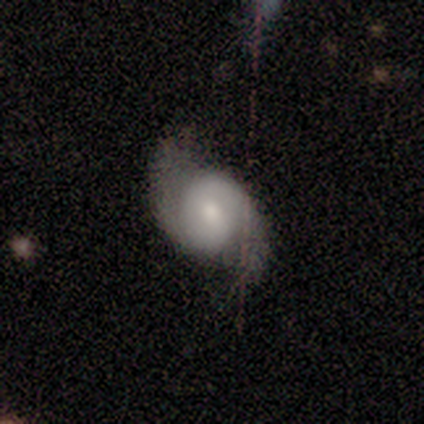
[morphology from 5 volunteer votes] This appears to be a featured or disk galaxy (80%) with a weak bar (50%), 2 (100%) loose (75%) spiral arms (100%) and a moderate central bulge (50%). Merging: none (60%).